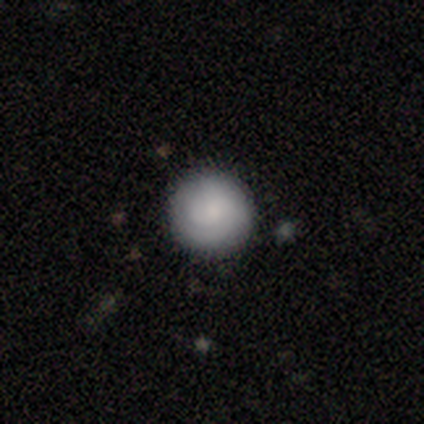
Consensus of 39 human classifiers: Q: Smooth or featured?
A: smooth (74%); runner-up: featured or disk (21%)
Q: How rounded?
A: round (100%)
Q: Merging?
A: none (95%); runner-up: minor disturbance (3%)